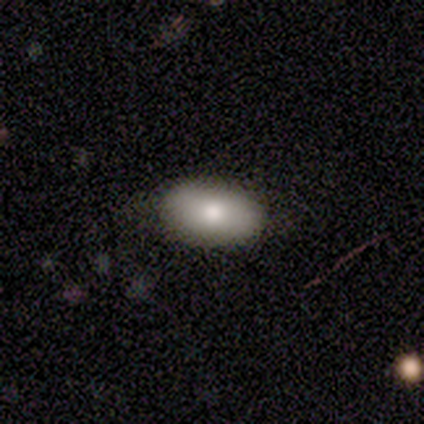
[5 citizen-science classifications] A smooth galaxy with no disk features (80%) that is in between round and cigar-shaped (100%).

Vote fractions:
- Smooth or featured? smooth: 80% / star or artifact: 20% / featured or disk: 0%
- How rounded? in between: 100% / round: 0% / cigar-shaped: 0%
- Merging? none: 100% / minor disturbance: 0% / major disturbance: 0% / merger: 0%